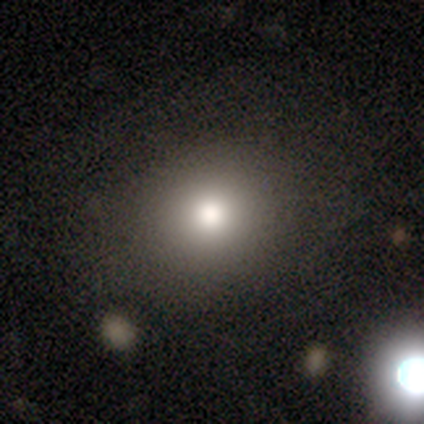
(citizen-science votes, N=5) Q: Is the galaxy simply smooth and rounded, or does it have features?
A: smooth — 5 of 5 (100%).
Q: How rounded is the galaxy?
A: round — 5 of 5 (100%).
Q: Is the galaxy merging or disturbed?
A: none — 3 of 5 (60%).